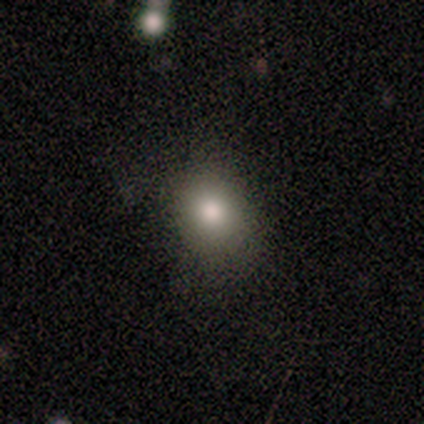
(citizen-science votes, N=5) Smooth or featured: smooth — 100%
How rounded: round — 60% (in between — 40%)
Merging: none — 80% (major disturbance — 20%)